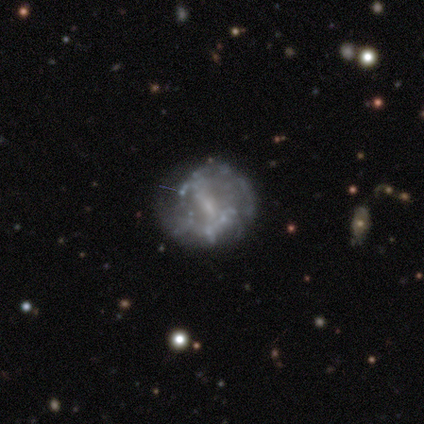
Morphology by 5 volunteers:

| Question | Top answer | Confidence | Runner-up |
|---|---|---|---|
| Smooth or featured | featured or disk | 80% | smooth (20%) |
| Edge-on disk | no | 100% | — |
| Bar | weak | 75% | no (25%) |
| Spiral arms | yes | 75% | no (25%) |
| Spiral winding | tight | 67% | loose (33%) |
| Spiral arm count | can't tell | 100% | — |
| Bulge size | moderate | 75% | small (25%) |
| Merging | none | 100% | — |